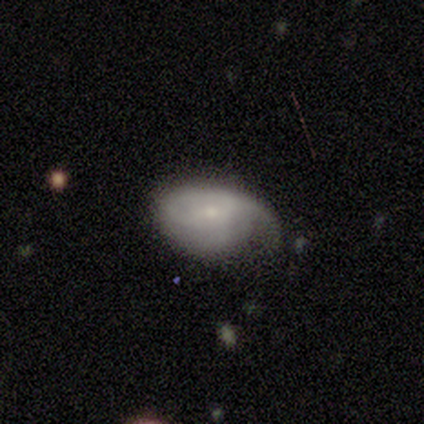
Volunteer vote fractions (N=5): Smooth or featured: smooth — 60% (featured or disk — 40%)
How rounded: in between — 100%
Merging: none — 60% (minor disturbance — 40%)